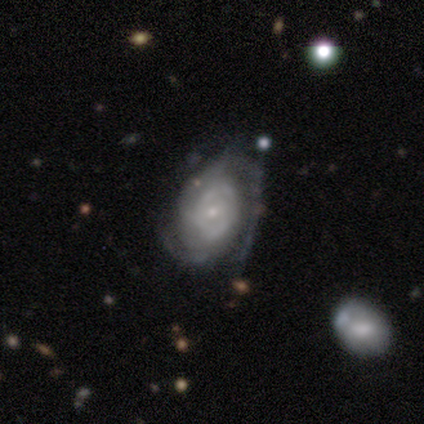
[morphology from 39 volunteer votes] smooth-or-featured: featured or disk: 87% | smooth: 13% | star or artifact: 0%
  disk-edge-on: no: 97% | yes: 3%
    bar: no: 70% | weak: 30% | strong: 0%
    has-spiral-arms: yes: 79% | no: 21%
      spiral-winding: tight: 54% | medium: 42% | loose: 4%
      spiral-arm-count: can't tell: 42% | 2: 35% | 3: 15% | 1: 8% | 4: 0% | more than 4: 0%
    bulge-size: small: 85% | moderate: 6% | dominant: 3% | large: 3% | none: 3%
  merging: none: 44% | minor disturbance: 28% | major disturbance: 28% | merger: 0%